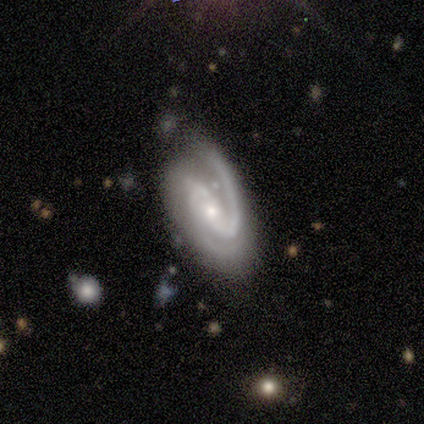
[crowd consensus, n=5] A featured or disk galaxy (100%) with no bar (60%), 2 (100%) medium (60%) spiral arms (100%) and a small central bulge (80%).

Vote fractions:
- Smooth or featured? featured or disk: 100% / smooth: 0% / star or artifact: 0%
- Edge-on disk? no: 100% / yes: 0%
- Bar? no: 60% / strong: 20% / weak: 20%
- Spiral arms? yes: 100% / no: 0%
- Spiral winding? medium: 60% / tight: 40% / loose: 0%
- Spiral arm count? 2: 100% / 1: 0% / 3: 0% / 4: 0% / more than 4: 0% / can't tell: 0%
- Bulge size? small: 80% / moderate: 20% / dominant: 0% / large: 0% / none: 0%
- Merging? none: 60% / minor disturbance: 40% / major disturbance: 0% / merger: 0%